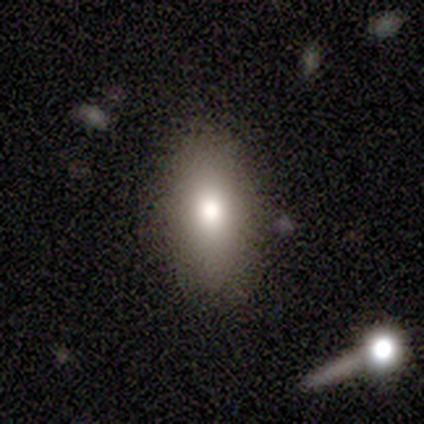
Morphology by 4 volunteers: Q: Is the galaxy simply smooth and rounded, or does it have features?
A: smooth — 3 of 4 (75%).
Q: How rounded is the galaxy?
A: in between — 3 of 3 (100%).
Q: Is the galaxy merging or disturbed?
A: none — 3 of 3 (100%).